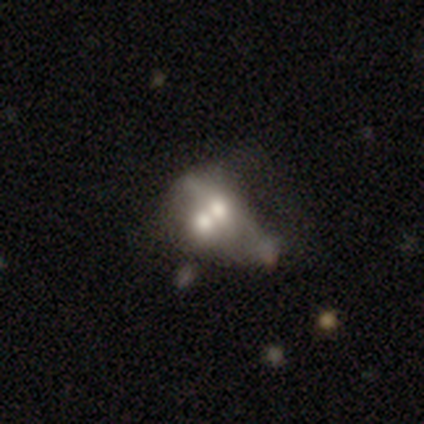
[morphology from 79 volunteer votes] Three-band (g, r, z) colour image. It shows a featured or disk galaxy (49%) with no bar (94%), no spiral arms (100%) and a moderate central bulge (88%). Merging: merger (75%).